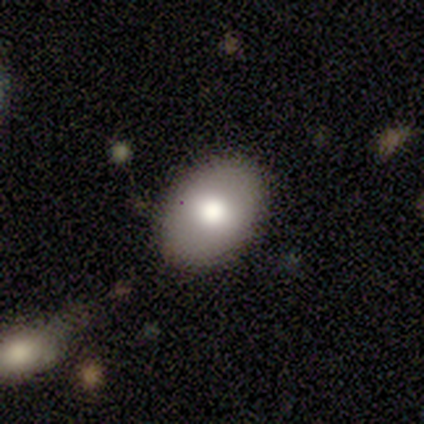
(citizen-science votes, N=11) Volunteers were most divided on "how rounded": in between: 56%, round: 44%, cigar-shaped: 0%. More confident: smooth or featured — smooth (82%); merging — none (82%).